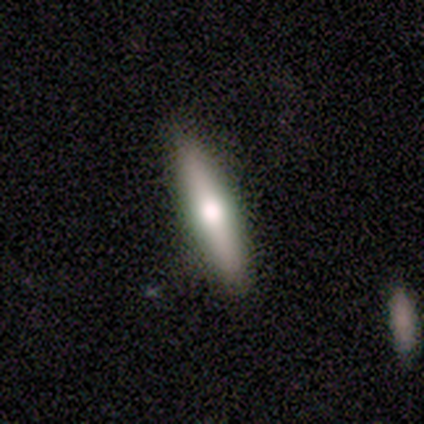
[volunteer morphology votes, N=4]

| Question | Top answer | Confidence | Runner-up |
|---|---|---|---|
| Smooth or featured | smooth | 50% | tied: featured or disk (50%) |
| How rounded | cigar-shaped | 100% | — |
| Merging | none | 75% | minor disturbance (25%) |